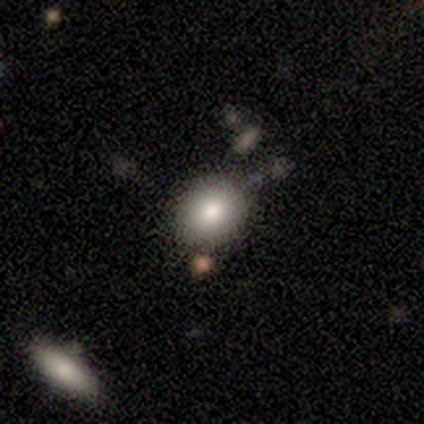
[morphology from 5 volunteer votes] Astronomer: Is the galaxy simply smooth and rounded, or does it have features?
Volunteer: smooth — 100%.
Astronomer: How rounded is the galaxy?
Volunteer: round — 60% (runner-up: in between, 40%).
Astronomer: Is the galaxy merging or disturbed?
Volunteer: none — 60%.